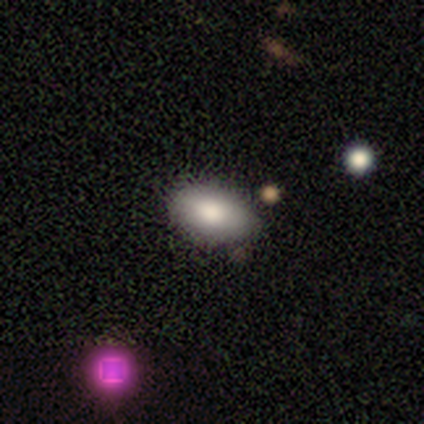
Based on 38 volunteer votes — This is likely a smooth galaxy (79%). How rounded: clearly in between (93%). Merging: clearly none (82%).